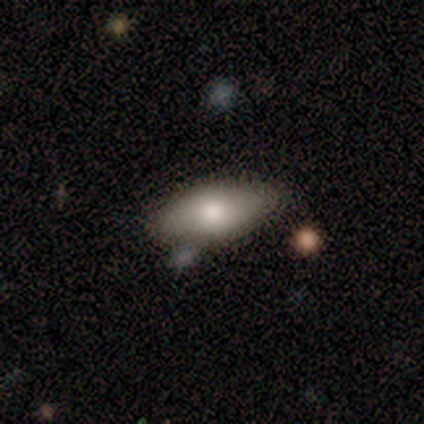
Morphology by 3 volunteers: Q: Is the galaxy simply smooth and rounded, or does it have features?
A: smooth — 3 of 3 (100%).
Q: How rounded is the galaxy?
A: in between — 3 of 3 (100%).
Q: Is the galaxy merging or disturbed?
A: none — 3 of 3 (100%).